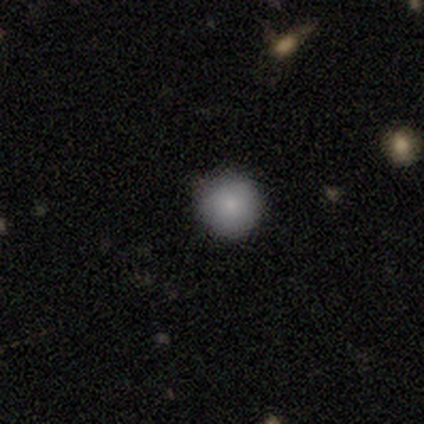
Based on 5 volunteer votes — A smooth galaxy with no disk features (100%) that is round (100%). Merging: none (100%).